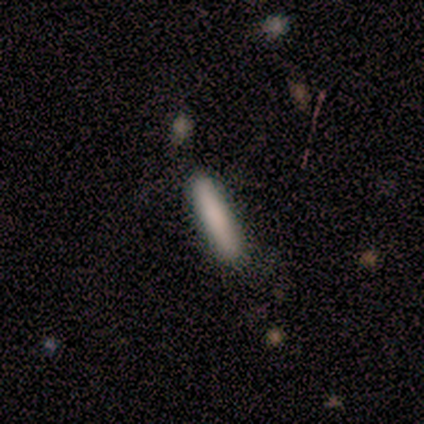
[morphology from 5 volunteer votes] This is clearly a smooth galaxy (80%). How rounded: clearly cigar-shaped (100%). Merging: clearly none (100%).